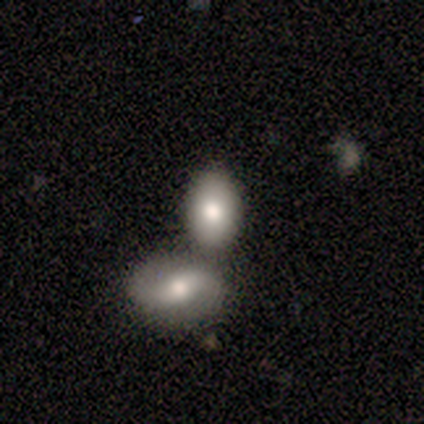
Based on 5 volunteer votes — Overall: featured or disk (60%; smooth 40%). Edge-on disk: no (100%). Bar: no (100%). Spiral arms: no (100%). Bulge size: large (67%; moderate 33%). Merging: none (60%; merger 40%).